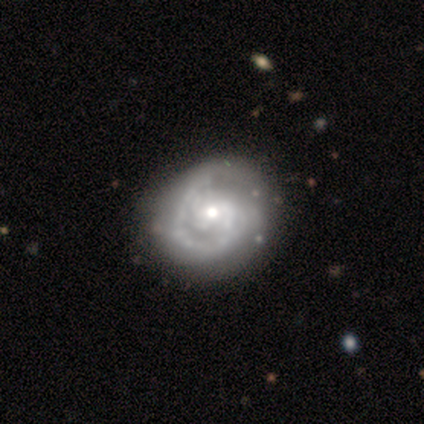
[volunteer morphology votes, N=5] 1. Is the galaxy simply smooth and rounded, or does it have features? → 100% featured or disk, 0% smooth, 0% star or artifact.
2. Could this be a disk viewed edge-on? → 100% no, 0% yes.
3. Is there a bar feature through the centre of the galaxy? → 80% no, 20% weak, 0% strong.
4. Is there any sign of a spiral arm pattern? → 100% yes, 0% no.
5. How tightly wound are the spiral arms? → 100% tight, 0% medium, 0% loose.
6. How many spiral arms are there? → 60% 1, 20% 2, 20% more than 4, 0% 3, 0% 4, 0% can't tell.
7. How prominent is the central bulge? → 60% small, 40% moderate, 0% dominant, 0% large, 0% none.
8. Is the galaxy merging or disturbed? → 80% none, 20% minor disturbance, 0% major disturbance, 0% merger.